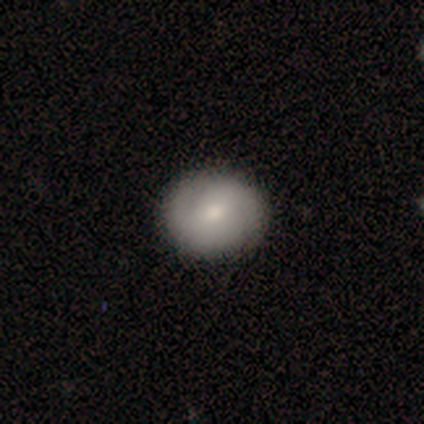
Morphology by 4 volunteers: Overall: smooth (50%; featured or disk 25%). How rounded: round (100%). Merging: none (67%; minor disturbance 33%).